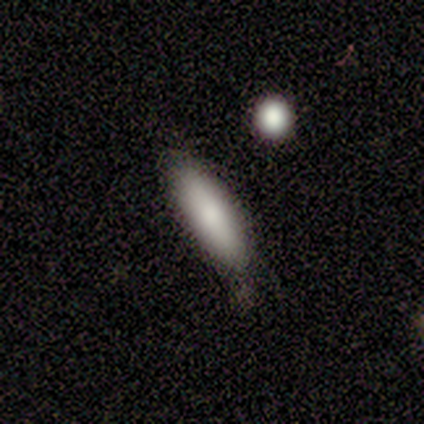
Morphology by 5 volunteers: smooth 80%, featured or disk 20%, star or artifact 0%. Down the decision tree: how rounded — in between (75%); merging — none (60%).